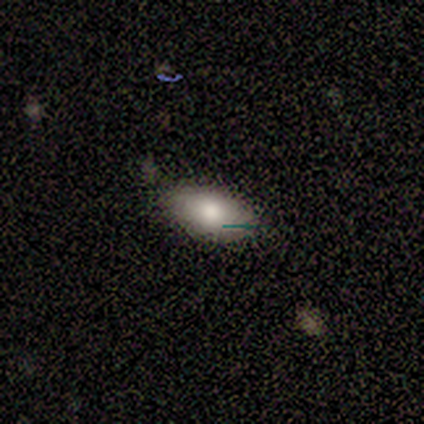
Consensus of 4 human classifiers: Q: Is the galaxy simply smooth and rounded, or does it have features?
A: smooth — 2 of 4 (50%).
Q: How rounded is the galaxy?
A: in between — 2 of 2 (100%).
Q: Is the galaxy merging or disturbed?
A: none — 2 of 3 (67%).